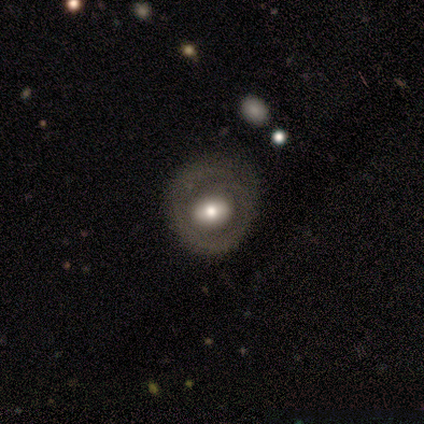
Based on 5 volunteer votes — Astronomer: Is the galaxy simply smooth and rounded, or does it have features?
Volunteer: featured or disk — 80%.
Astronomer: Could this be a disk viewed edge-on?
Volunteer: no — 100%.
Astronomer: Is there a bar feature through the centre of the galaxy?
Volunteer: weak — 50%, tied with no at 50%.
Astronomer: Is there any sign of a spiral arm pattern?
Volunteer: no — 100%.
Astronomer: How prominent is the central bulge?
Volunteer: small — 50%.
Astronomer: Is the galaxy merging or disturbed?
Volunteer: none — 80%.